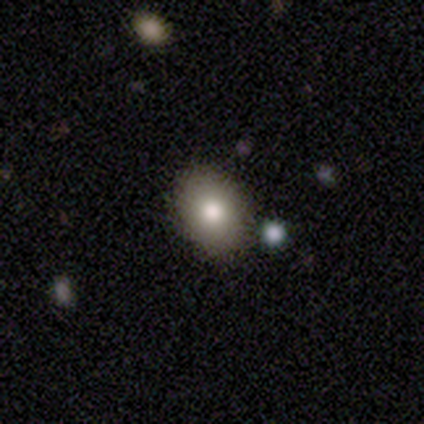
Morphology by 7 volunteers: type=smooth (100%); roundness=round (57%); merging=none (100%).